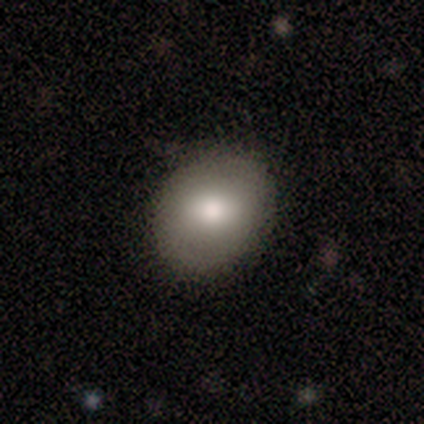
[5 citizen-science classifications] This is likely a smooth galaxy (60%). How rounded: clearly round (100%). Merging: likely none (75%).